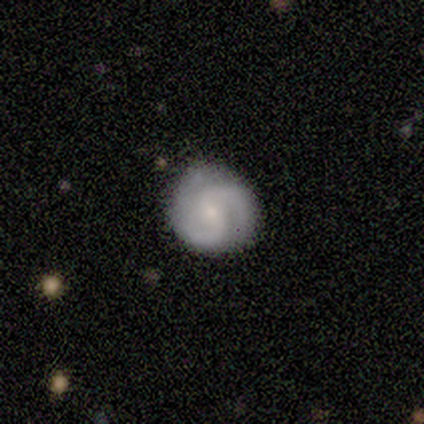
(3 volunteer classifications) Smooth or featured? featured or disk (67%)
Edge-on disk? no (100%)
Bar? no (100%)
Spiral arms? yes (100%)
Spiral winding? tight (50%, tied with medium)
Spiral arm count? 3 (100%)
Bulge size? small (100%)
Merging? none (67%)